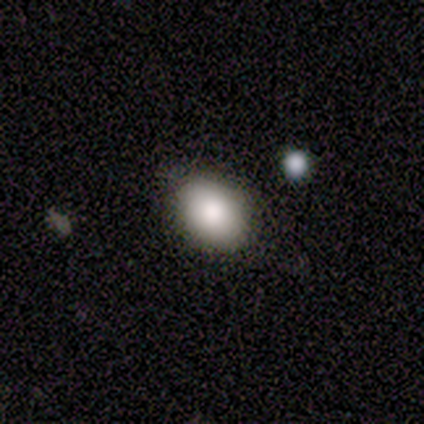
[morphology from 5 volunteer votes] smooth-or-featured: smooth: 100% | featured or disk: 0% | star or artifact: 0%
  how-rounded: in between: 100% | round: 0% | cigar-shaped: 0%
  merging: none: 80% | major disturbance: 20% | minor disturbance: 0% | merger: 0%